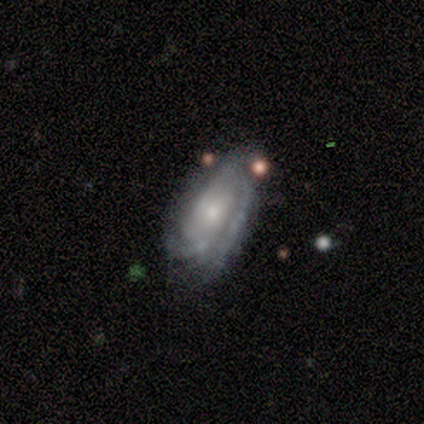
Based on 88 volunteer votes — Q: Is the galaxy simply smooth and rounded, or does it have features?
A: featured or disk — 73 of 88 (83%).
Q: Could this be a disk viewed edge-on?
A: no — 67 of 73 (92%).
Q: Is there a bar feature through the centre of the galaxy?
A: no — 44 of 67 (66%).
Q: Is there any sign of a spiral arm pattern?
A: yes — 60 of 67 (90%).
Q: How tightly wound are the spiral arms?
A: tight — 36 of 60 (60%).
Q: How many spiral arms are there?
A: can't tell — 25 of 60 (42%).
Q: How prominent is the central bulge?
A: small — 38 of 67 (57%).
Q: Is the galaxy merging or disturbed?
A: none — 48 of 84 (57%).